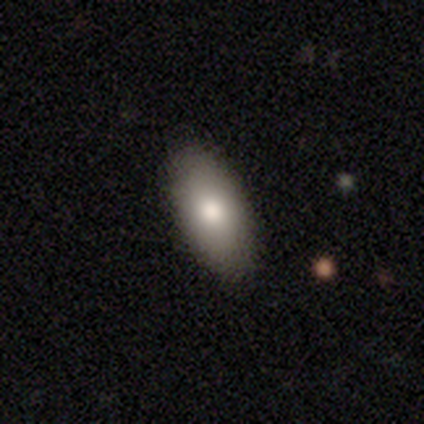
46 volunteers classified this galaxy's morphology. type=smooth (85%); roundness=in between (90%); merging=none (84%).